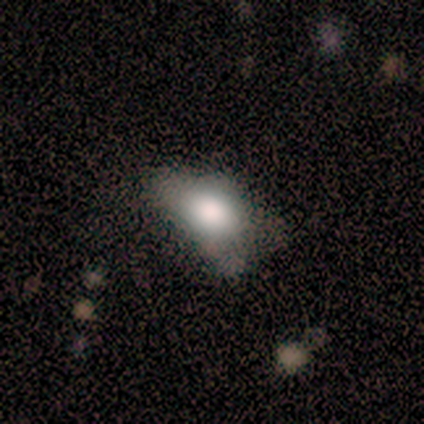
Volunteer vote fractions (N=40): This appears to be a smooth galaxy with no disk features (78%) that is in between round and cigar-shaped (94%). Merging: none (46%).